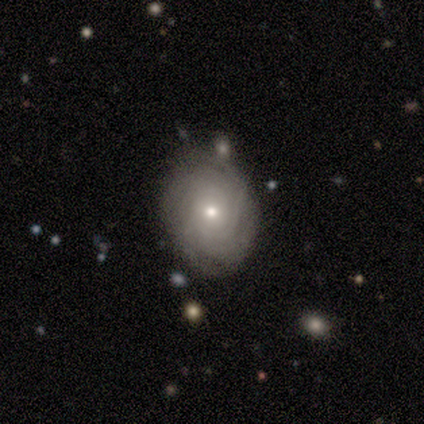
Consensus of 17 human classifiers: smooth_or_featured: featured or disk (p=0.94) [alt: smooth p=0.06]
disk_edge_on: no (p=1.00)
bar: no (p=0.88) [alt: weak p=0.12]
has_spiral_arms: yes (p=0.81) [alt: no p=0.19]
spiral_winding: tight (p=0.92) [alt: medium p=0.08]
spiral_arm_count: can't tell (p=0.62) [alt: more than 4 p=0.23]
bulge_size: small (p=0.56) [alt: moderate p=0.44]
merging: none (p=0.82) [alt: minor disturbance p=0.12]